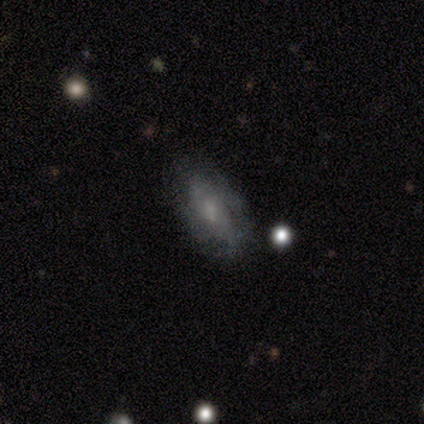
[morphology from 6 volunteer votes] A featured or disk galaxy (50%) with a weak bar (67%), 2 (50%, tied with 3) tight (50%, tied with medium) spiral arms (67%) and a moderate central bulge (33%, tied with small and none). Merging: none (60%).